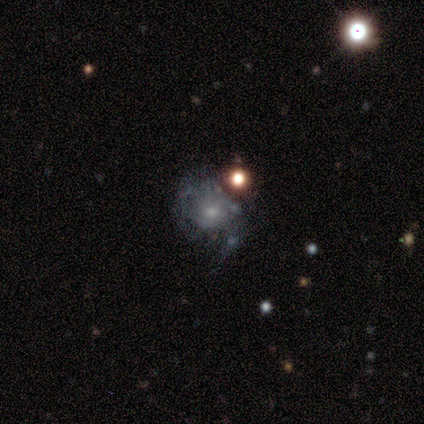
Smooth or featured? featured or disk (80%)
Edge-on disk? no (100%)
Bar? no (75%)
Spiral arms? yes (50%, tied with no)
Spiral winding? tight (50%, tied with medium)
Spiral arm count? 1 (50%, tied with can't tell)
Bulge size? small (100%)
Merging? major disturbance (50%)